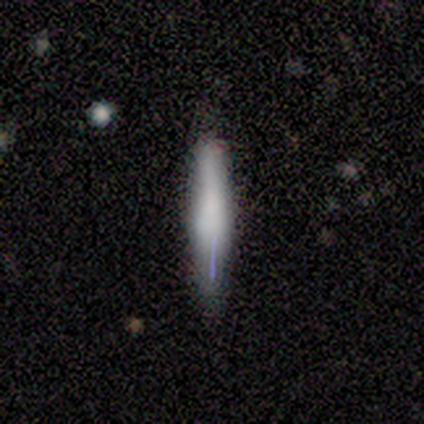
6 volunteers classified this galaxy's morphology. Smooth or featured?
  - smooth: 50% * (tied)
  - featured or disk: 50% * (tied)
  - star or artifact: 0%
How rounded?
  - cigar-shaped: 100% *
  - round: 0%
  - in between: 0%
Merging?
  - none: 67% *
  - minor disturbance: 33%
  - major disturbance: 0%
  - merger: 0%